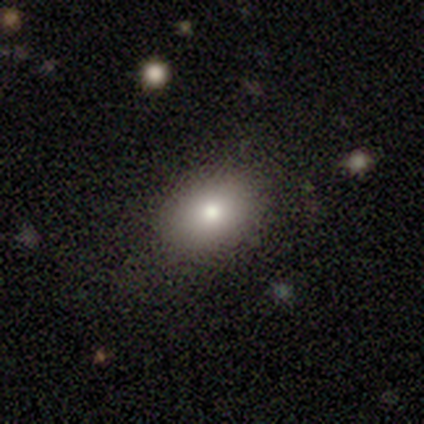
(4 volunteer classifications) This appears to be a smooth galaxy with no disk features (75%) that is round (67%). Merging: none (100%).